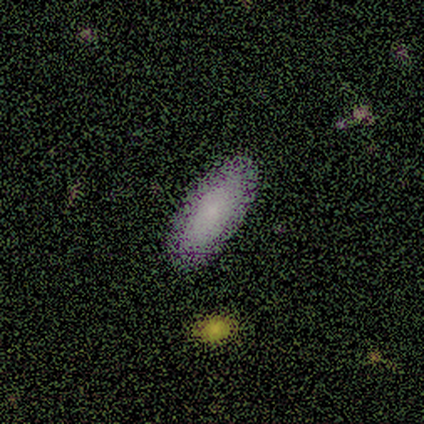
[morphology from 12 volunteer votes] This appears to be a smooth galaxy with no disk features (67%) that is in between round and cigar-shaped (88%). Merging: none (90%).